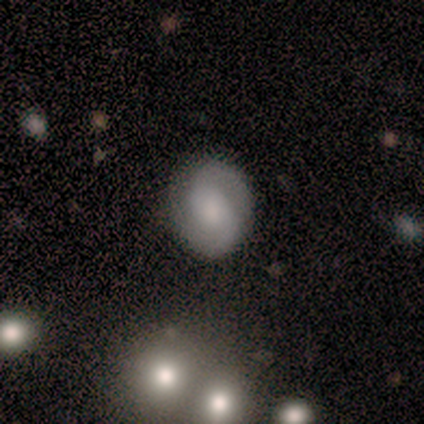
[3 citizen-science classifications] Smooth or featured?
  - smooth: 67% *
  - featured or disk: 33%
  - star or artifact: 0%
How rounded?
  - round: 50% * (tied)
  - in between: 50% * (tied)
  - cigar-shaped: 0%
Merging?
  - none: 67% *
  - minor disturbance: 33%
  - major disturbance: 0%
  - merger: 0%